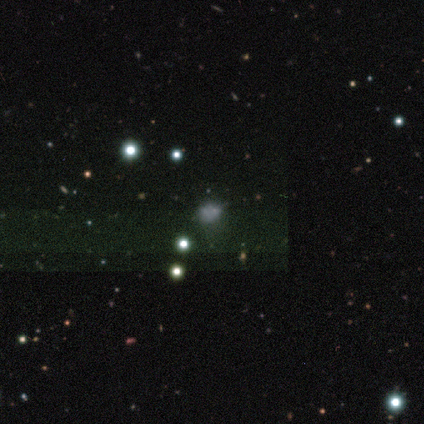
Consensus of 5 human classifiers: Morphology: type=smooth (40%, tied with star or artifact); roundness=in between (100%); merging=none (100%).